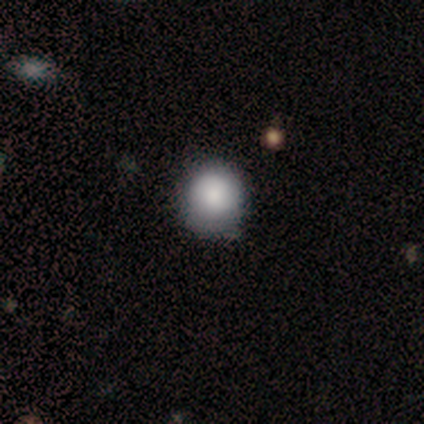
A smooth galaxy with no disk features (100%) that is round (80%).

Vote fractions:
- Smooth or featured? smooth: 100% / featured or disk: 0% / star or artifact: 0%
- How rounded? round: 80% / in between: 20% / cigar-shaped: 0%
- Merging? none: 80% / minor disturbance: 20% / major disturbance: 0% / merger: 0%